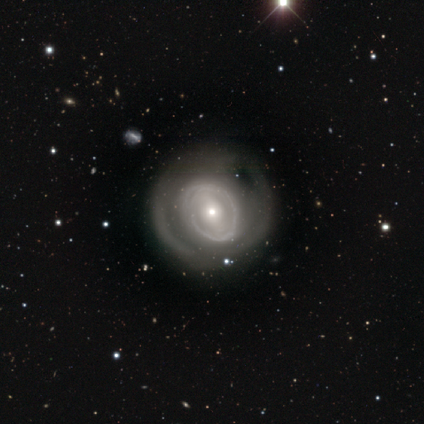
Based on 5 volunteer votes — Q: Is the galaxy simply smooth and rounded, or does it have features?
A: featured or disk — 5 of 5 (100%).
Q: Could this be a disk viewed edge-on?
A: no — 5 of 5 (100%).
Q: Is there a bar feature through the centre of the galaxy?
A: strong — 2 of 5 (40%, tied with weak).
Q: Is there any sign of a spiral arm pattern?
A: yes — 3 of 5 (60%).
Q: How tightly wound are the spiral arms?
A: medium — 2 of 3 (67%).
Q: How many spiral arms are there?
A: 2 — 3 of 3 (100%).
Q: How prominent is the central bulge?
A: moderate — 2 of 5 (40%, tied with small).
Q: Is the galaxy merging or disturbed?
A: none — 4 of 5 (80%).